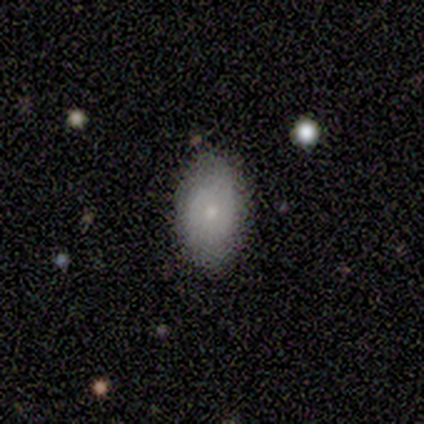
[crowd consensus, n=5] Smooth or featured: smooth — 100%
How rounded: in between — 100%
Merging: none — 100%